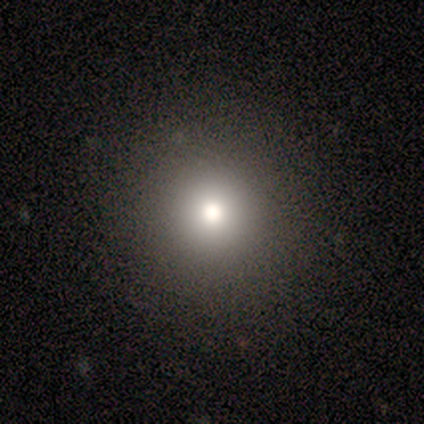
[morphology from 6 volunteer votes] Smooth or featured? 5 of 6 (83%) said smooth. How rounded? 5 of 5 (100%) said round. Merging? 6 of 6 (100%) said none.